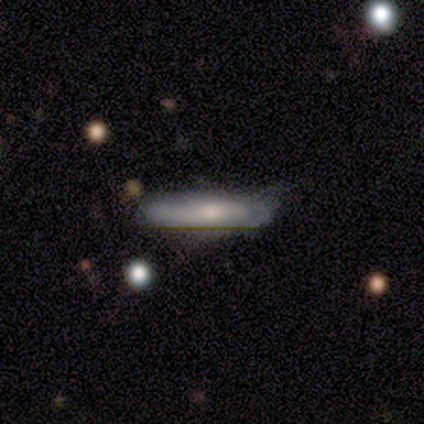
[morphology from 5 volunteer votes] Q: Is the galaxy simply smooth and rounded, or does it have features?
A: smooth — 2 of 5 (40%, tied with featured or disk).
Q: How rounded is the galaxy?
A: in between — 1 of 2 (50%, tied with cigar-shaped).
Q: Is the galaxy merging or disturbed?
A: minor disturbance — 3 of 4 (75%).